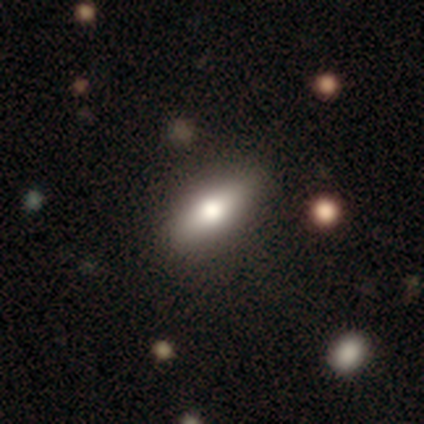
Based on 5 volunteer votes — Overall: smooth (60%; featured or disk 40%). How rounded: cigar-shaped (67%; in between 33%). Merging: none (60%; major disturbance 40%).